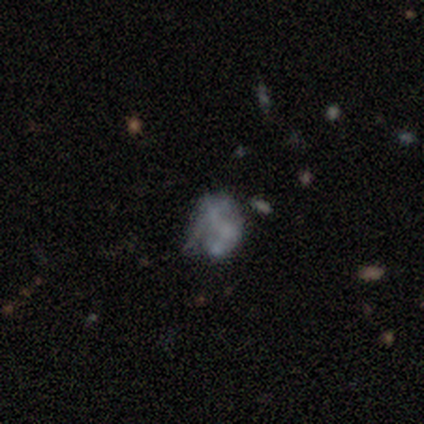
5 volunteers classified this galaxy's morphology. This appears to be a featured or disk galaxy (100%) with no bar (100%), no spiral arms (100%) and no central bulge (100%). Merging: none (40%, tied with major disturbance).